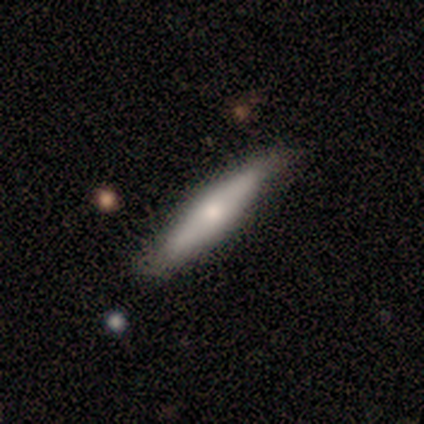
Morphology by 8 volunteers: Smooth or featured: smooth — 50% (tied with featured or disk — 50%)
How rounded: in between — 50% (tied with cigar-shaped — 50%)
Merging: none — 100%